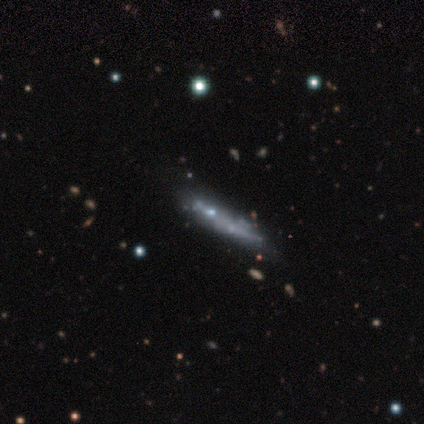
A featured or disk galaxy (47%) viewed edge-on (50%, tied with no) with no central bulge (89%). Merging: none (68%).